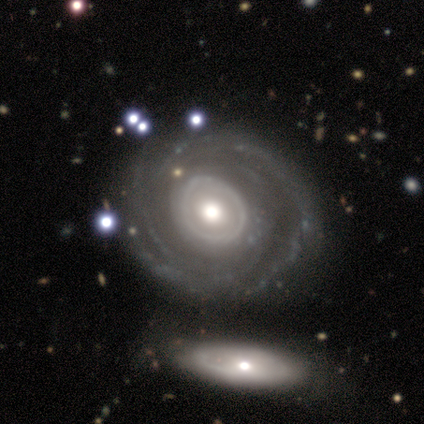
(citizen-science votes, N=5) smooth_or_featured: featured or disk (p=0.80) [alt: smooth p=0.20]
disk_edge_on: no (p=1.00)
bar: no (p=1.00)
has_spiral_arms: yes (p=1.00)
spiral_winding: tight (p=0.50) [alt: medium p=0.25]
spiral_arm_count: can't tell (p=0.75) [alt: 4 p=0.25]
bulge_size: moderate (p=0.75) [alt: large p=0.25]
merging: none (p=0.60) [alt: minor disturbance p=0.20]